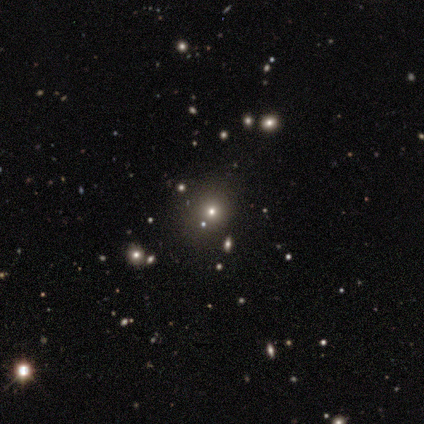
Smooth or featured? 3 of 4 (75%) said star or artifact.